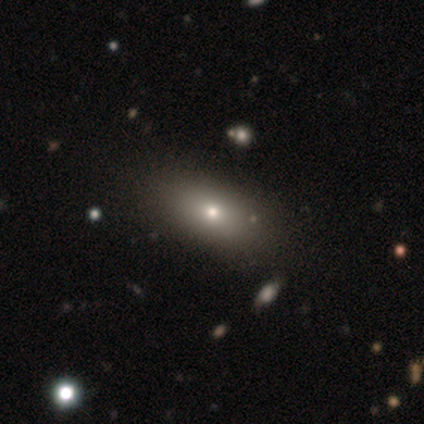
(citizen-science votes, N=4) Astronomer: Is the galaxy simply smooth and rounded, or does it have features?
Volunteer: smooth — 75%.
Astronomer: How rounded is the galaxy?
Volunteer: in between — 100%.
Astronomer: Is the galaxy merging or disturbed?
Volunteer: none — 100%.